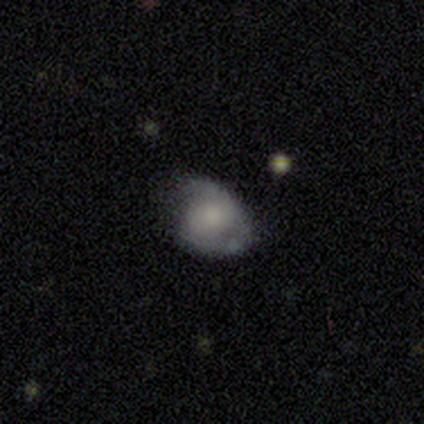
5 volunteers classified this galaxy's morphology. Smooth or featured? 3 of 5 (60%) said smooth. How rounded? 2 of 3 (67%) said in between. Merging? 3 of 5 (60%) said none.